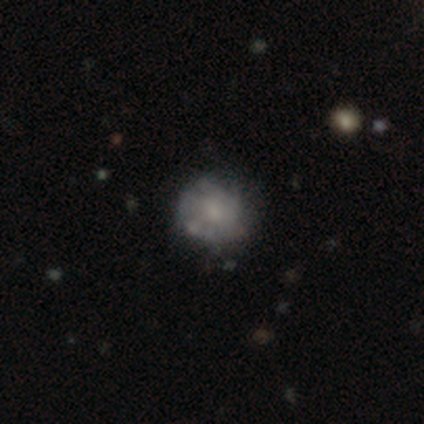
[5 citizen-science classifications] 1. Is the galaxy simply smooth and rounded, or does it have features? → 40% smooth (tied), 40% featured or disk (tied), 20% star or artifact.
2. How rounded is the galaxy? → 100% round, 0% in between, 0% cigar-shaped.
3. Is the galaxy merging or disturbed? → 75% none, 25% minor disturbance, 0% major disturbance, 0% merger.